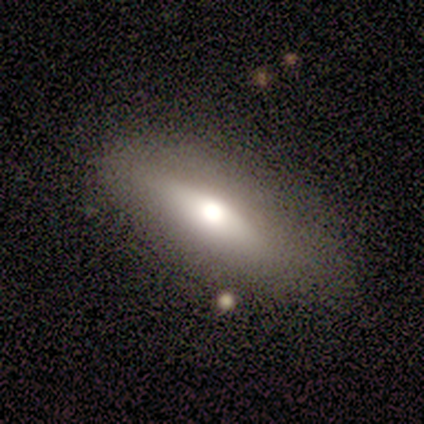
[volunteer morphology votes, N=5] smooth 60%, featured or disk 40%, star or artifact 0%. Down the decision tree: how rounded — in between (100%); merging — none (80%).